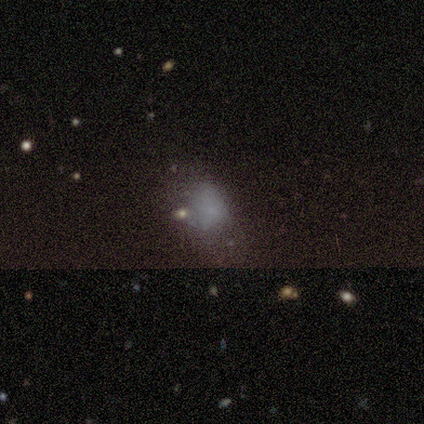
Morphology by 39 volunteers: Smooth or featured: smooth — 54% (featured or disk — 26%)
How rounded: in between — 76% (round — 24%)
Merging: none — 65% (major disturbance — 16%)